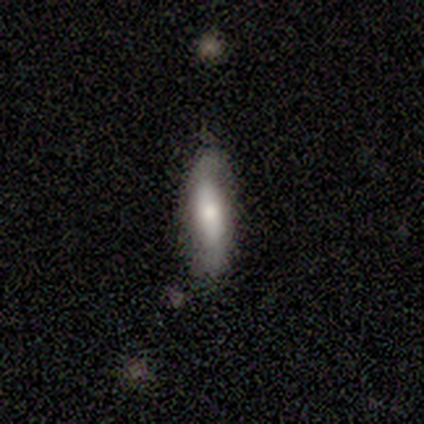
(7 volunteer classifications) A smooth galaxy with no disk features (43%, tied with featured or disk) that is cigar-shaped (100%). Merging: none (83%).